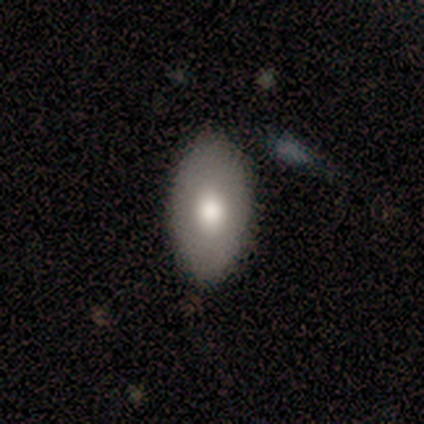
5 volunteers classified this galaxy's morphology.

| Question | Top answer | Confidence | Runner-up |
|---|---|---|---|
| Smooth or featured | smooth | 80% | featured or disk (20%) |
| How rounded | in between | 75% | cigar-shaped (25%) |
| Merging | none | 60% | minor disturbance (20%) |